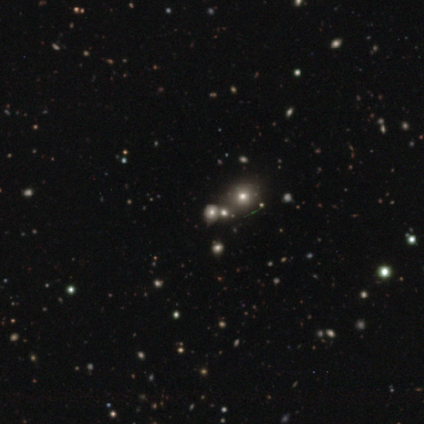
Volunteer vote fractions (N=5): Morphology: type=star or artifact (80%).